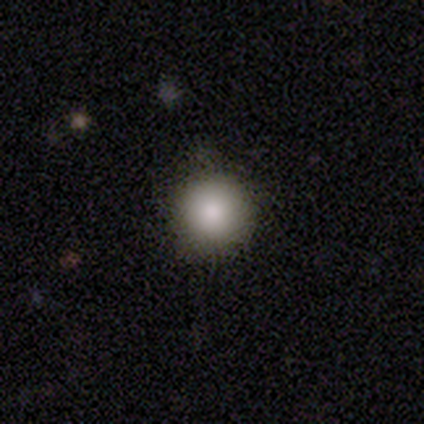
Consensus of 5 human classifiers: Morphology: type=smooth (100%); roundness=round (100%); merging=none (80%).